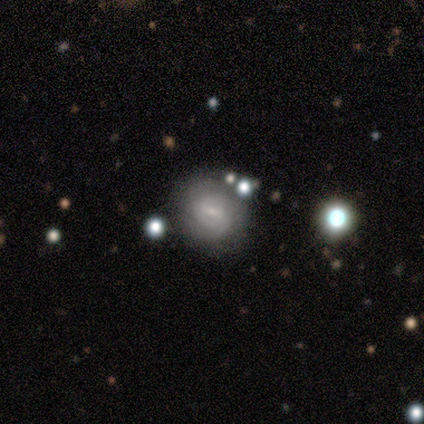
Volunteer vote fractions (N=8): Smooth or featured: featured or disk — 75% (smooth — 25%)
Edge-on disk: no — 100%
Bar: weak — 100%
Spiral arms: yes — 100%
Spiral winding: tight — 67% (medium — 17%)
Spiral arm count: 2 — 50% (can't tell — 33%)
Bulge size: small — 67% (none — 33%)
Merging: none — 88% (minor disturbance — 12%)